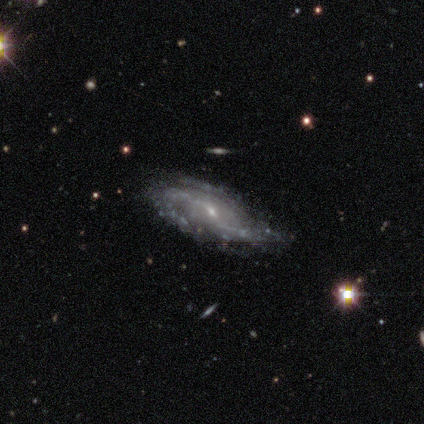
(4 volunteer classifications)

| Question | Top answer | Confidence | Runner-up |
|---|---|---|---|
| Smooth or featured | featured or disk | 100% | — |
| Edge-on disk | no | 100% | — |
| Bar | weak | 75% | strong (25%) |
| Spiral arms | yes | 100% | — |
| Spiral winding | medium | 50% | tied: loose (50%) |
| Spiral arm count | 2 | 50% | 3 (25%) |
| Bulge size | small | 75% | moderate (25%) |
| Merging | none | 75% | minor disturbance (25%) |